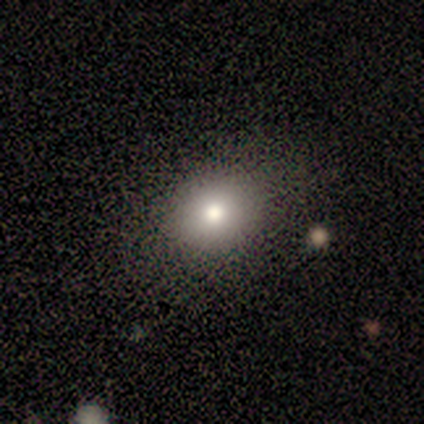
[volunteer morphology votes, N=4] A smooth galaxy with no disk features (50%, tied with star or artifact) that is round (100%).

Vote fractions:
- Smooth or featured? smooth: 50% (tied) / star or artifact: 50% (tied) / featured or disk: 0%
- How rounded? round: 100% / in between: 0% / cigar-shaped: 0%
- Merging? none: 50% (tied) / merger: 50% (tied) / minor disturbance: 0% / major disturbance: 0%